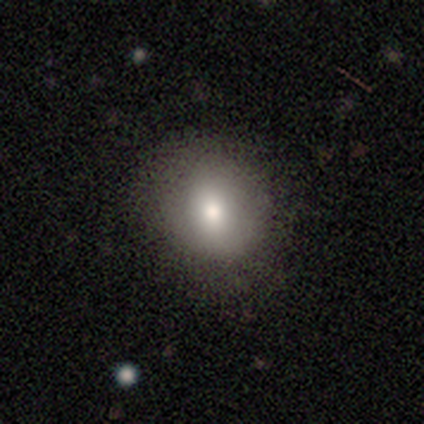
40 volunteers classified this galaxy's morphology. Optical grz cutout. It shows a smooth galaxy with no disk features (80%) that is round (62%). Merging: none (73%).